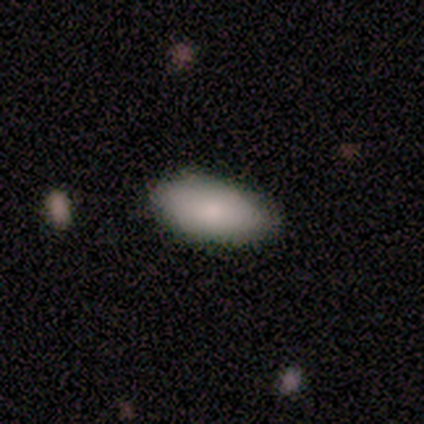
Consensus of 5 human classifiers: smooth-or-featured: smooth: 80% | featured or disk: 20% | star or artifact: 0%
  how-rounded: in between: 100% | round: 0% | cigar-shaped: 0%
  merging: none: 60% | minor disturbance: 40% | major disturbance: 0% | merger: 0%